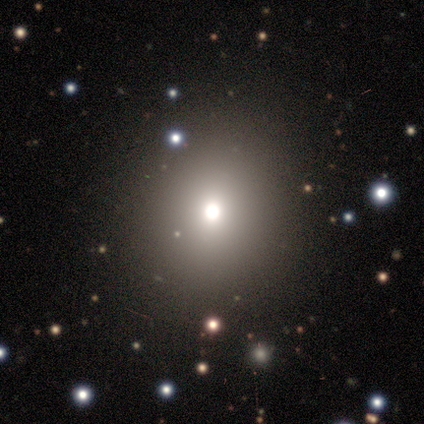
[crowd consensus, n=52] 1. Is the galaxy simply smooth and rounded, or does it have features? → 75% smooth, 19% star or artifact, 6% featured or disk.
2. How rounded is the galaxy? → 74% round, 26% in between, 0% cigar-shaped.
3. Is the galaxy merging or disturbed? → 74% none, 5% minor disturbance, 5% major disturbance, 5% merger.